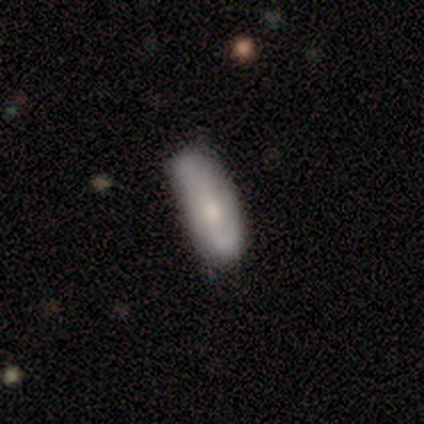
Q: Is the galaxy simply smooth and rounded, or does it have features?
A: smooth — 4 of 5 (80%).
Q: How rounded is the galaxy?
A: in between — 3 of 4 (75%).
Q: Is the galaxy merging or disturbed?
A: none — 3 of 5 (60%).